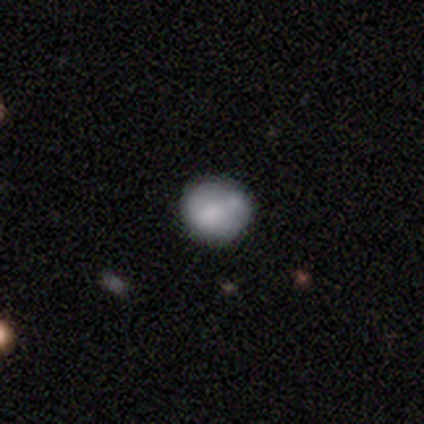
smooth_or_featured: smooth (p=0.75) [alt: featured or disk p=0.25]
how_rounded: round (p=1.00)
merging: none (p=0.50) [tied with: minor disturbance p=0.50]